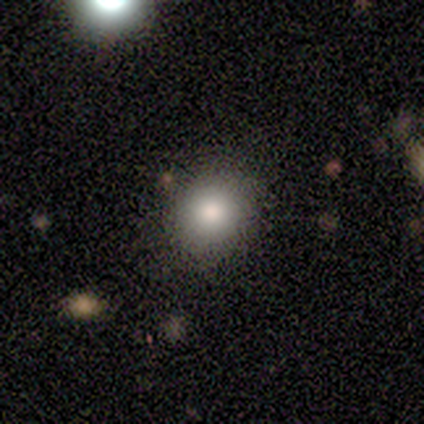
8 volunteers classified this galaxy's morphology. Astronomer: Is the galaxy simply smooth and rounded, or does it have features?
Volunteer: smooth — 100%.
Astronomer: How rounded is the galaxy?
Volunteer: round — 62%.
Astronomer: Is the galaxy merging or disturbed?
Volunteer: none — 88%.